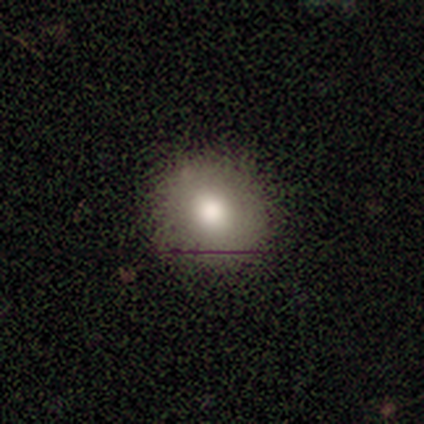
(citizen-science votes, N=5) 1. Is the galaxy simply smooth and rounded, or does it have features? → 80% smooth, 20% star or artifact, 0% featured or disk.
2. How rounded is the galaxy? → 100% round, 0% in between, 0% cigar-shaped.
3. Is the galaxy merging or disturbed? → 75% none, 25% minor disturbance, 0% major disturbance, 0% merger.